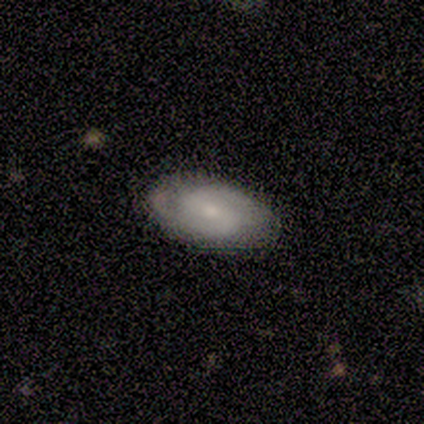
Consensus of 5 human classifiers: Smooth or featured? featured or disk (80%)
Edge-on disk? no (100%)
Bar? no (75%)
Spiral arms? yes (100%)
Spiral winding? tight (50%, tied with medium)
Spiral arm count? 2 (75%)
Bulge size? moderate (50%, tied with small)
Merging? none (100%)